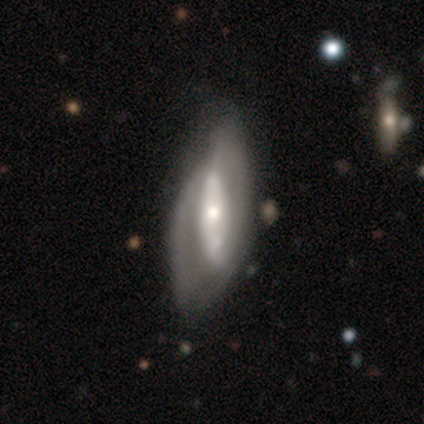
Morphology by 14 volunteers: Smooth or featured: featured or disk — 64% (smooth — 21%)
Edge-on disk: no — 100%
Bar: strong — 44% (tied with no — 44%)
Spiral arms: yes — 89% (no — 11%)
Spiral winding: medium — 62% (tight — 25%)
Spiral arm count: can't tell — 50% (2 — 25%)
Bulge size: large — 44% (small — 33%)
Merging: minor disturbance — 42% (major disturbance — 33%)